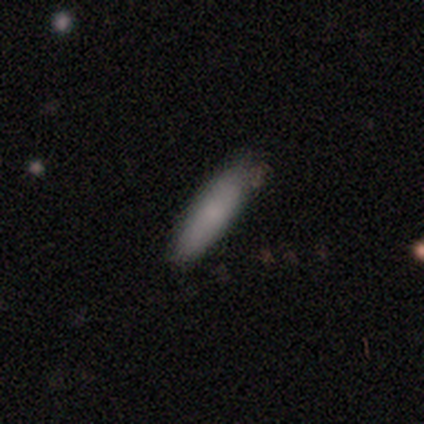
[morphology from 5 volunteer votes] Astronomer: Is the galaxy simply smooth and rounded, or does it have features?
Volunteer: smooth — 80%.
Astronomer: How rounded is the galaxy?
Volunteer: cigar-shaped — 100%.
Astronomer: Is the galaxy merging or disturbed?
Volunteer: none — 100%.